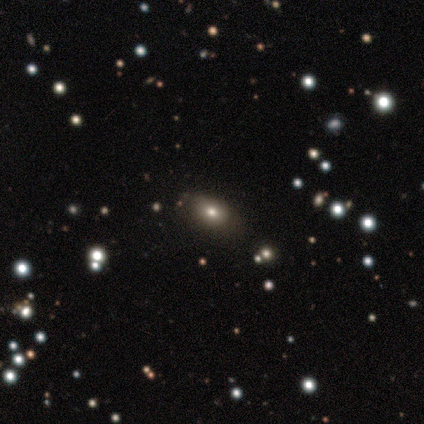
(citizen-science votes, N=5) This appears to be a smooth galaxy with no disk features (40%, tied with featured or disk) that is in between round and cigar-shaped (100%). Merging: none (100%).